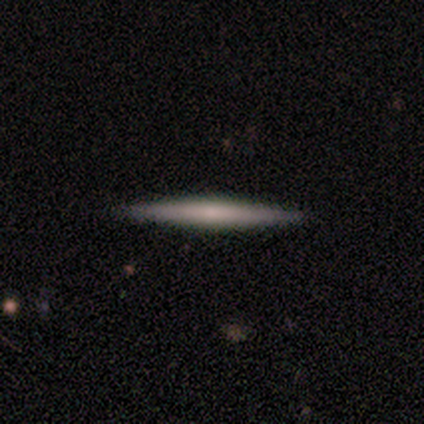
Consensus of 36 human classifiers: Smooth or featured? 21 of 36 (58%) said featured or disk. Edge-on disk? 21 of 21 (100%) said yes. Edge-on bulge? 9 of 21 (43%) said none. Merging? 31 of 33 (94%) said none.